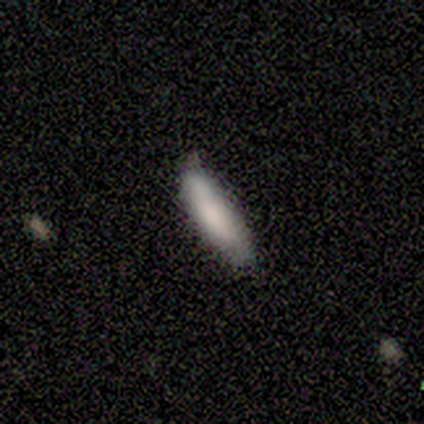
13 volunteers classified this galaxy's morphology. Overall: smooth (77%). How rounded: cigar-shaped (100%). Merging: none (75%).